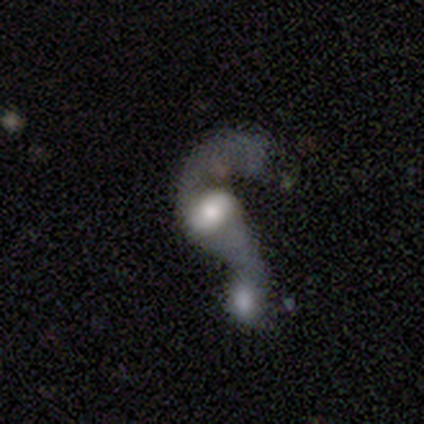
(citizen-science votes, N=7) Smooth or featured: featured or disk — 71% (smooth — 29%)
Edge-on disk: no — 100%
Bar: no — 60% (strong — 20%)
Spiral arms: yes — 60% (no — 40%)
Spiral winding: loose — 100%
Spiral arm count: 2 — 100%
Bulge size: large — 40% (tied with small — 40%)
Merging: merger — 71% (minor disturbance — 14%)